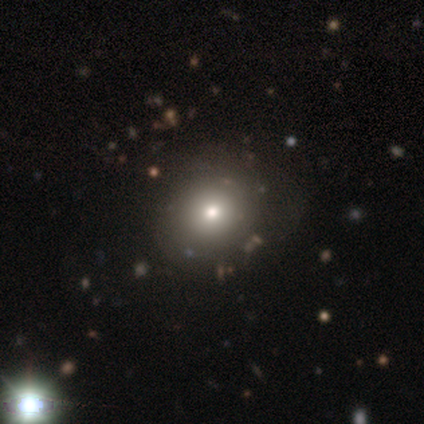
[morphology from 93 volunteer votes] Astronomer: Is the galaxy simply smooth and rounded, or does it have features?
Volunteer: smooth — 73%.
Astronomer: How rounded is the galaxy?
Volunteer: round — 76%.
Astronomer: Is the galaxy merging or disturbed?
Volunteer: none — 70%.